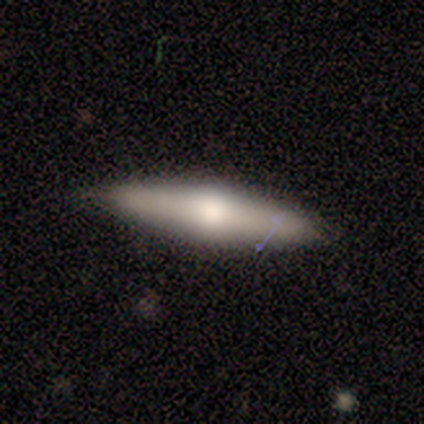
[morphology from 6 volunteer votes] Smooth or featured?
  - featured or disk: 67% *
  - smooth: 17%
  - star or artifact: 17%
Edge-on disk?
  - yes: 100% *
  - no: 0%
Edge-on bulge?
  - rounded: 100% *
  - boxy: 0%
  - none: 0%
Merging?
  - none: 80% *
  - minor disturbance: 20%
  - major disturbance: 0%
  - merger: 0%